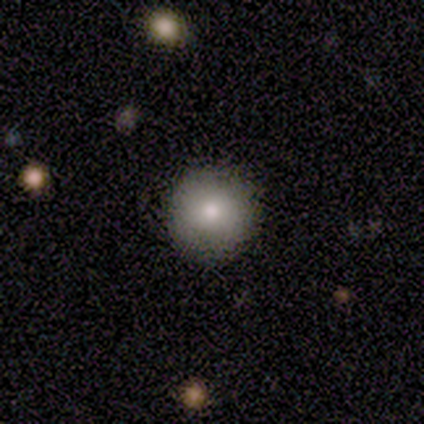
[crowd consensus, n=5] A smooth galaxy with no disk features (100%) that is round (100%). Merging: none (100%).